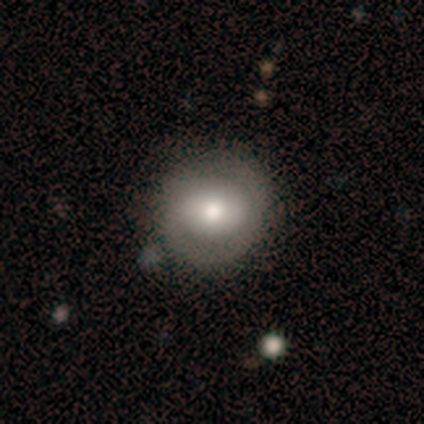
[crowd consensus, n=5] Smooth or featured? 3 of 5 (60%) said featured or disk. Edge-on disk? 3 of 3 (100%) said no. Bar? 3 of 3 (100%) said no. Spiral arms? 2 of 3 (67%) said no. Bulge size? 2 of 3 (67%) said moderate. Merging? 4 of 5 (80%) said none.